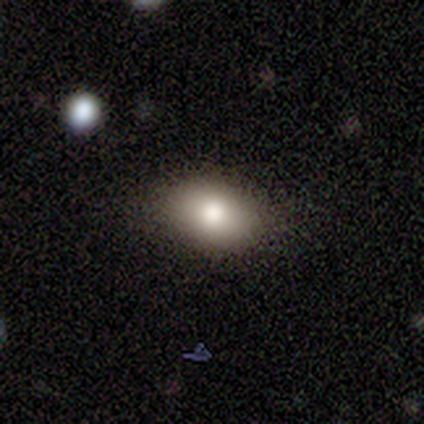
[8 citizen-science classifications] A smooth galaxy with no disk features (88%) that is in between round and cigar-shaped (71%). Merging: none (86%).